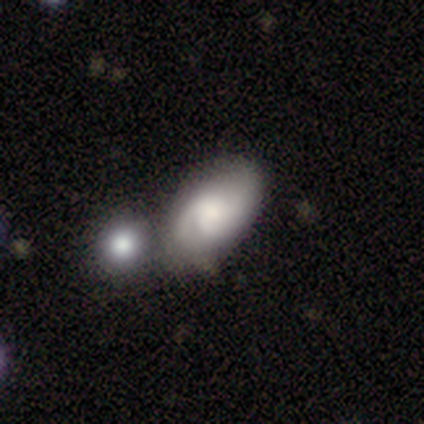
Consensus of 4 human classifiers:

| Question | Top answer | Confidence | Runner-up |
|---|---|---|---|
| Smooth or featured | smooth | 75% | featured or disk (25%) |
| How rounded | in between | 100% | — |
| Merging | minor disturbance | 50% | none (25%) |